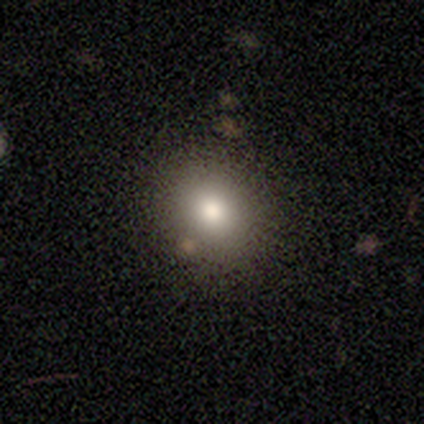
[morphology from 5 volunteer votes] Volunteers were most divided on "how rounded": round: 60%, in between: 40%, cigar-shaped: 0%. More confident: smooth or featured — smooth (100%); merging — none (80%).